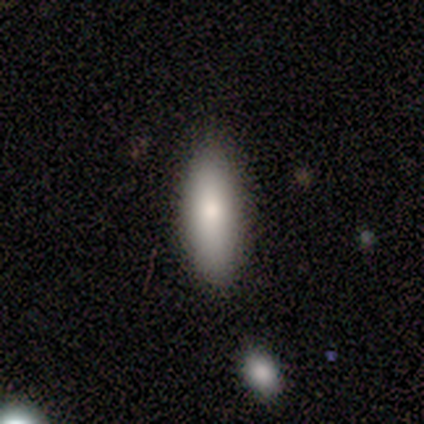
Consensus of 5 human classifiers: Volunteers were most divided on "how rounded": in between: 75%, cigar-shaped: 25%, round: 0%. More confident: smooth or featured — smooth (80%); merging — none (80%).